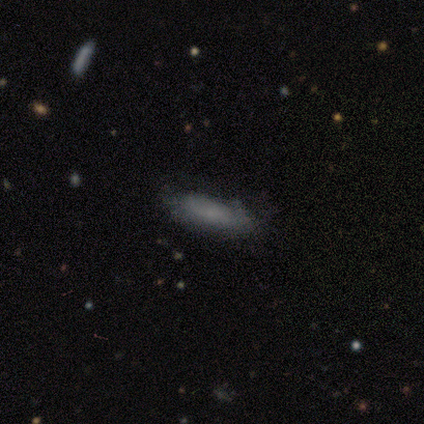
Smooth or featured: smooth — 50% (tied with featured or disk — 50%)
How rounded: in between — 100%
Merging: none — 75% (minor disturbance — 25%)